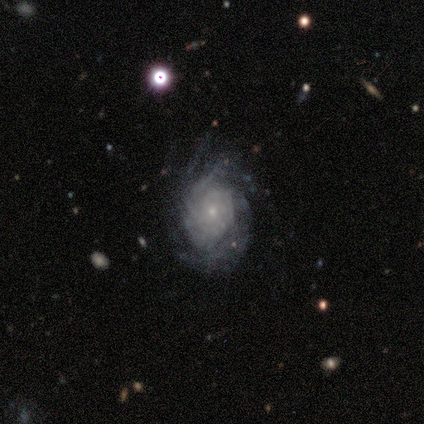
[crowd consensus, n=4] Smooth or featured?
  - featured or disk: 75% *
  - star or artifact: 25%
  - smooth: 0%
Edge-on disk?
  - no: 100% *
  - yes: 0%
Bar?
  - no: 100% *
  - strong: 0%
  - weak: 0%
Spiral arms?
  - no: 67% *
  - yes: 33%
Bulge size?
  - small: 67% *
  - moderate: 33%
  - dominant: 0%
  - large: 0%
  - none: 0%
Merging?
  - none: 67% *
  - minor disturbance: 33%
  - major disturbance: 0%
  - merger: 0%